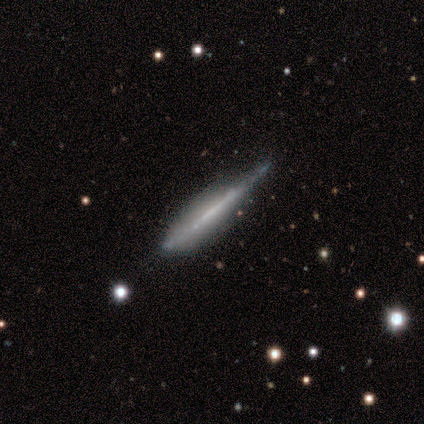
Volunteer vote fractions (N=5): smooth_or_featured: featured or disk (p=0.60) [alt: smooth p=0.40]
disk_edge_on: yes (p=1.00)
edge_on_bulge: none (p=0.67) [alt: boxy p=0.33]
merging: none (p=0.60) [alt: major disturbance p=0.40]